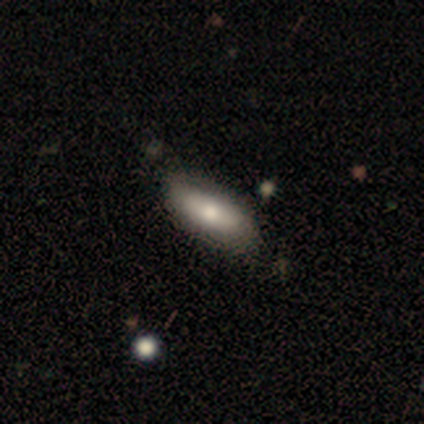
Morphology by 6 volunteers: type=smooth (67%); roundness=in between (100%); merging=none (80%).